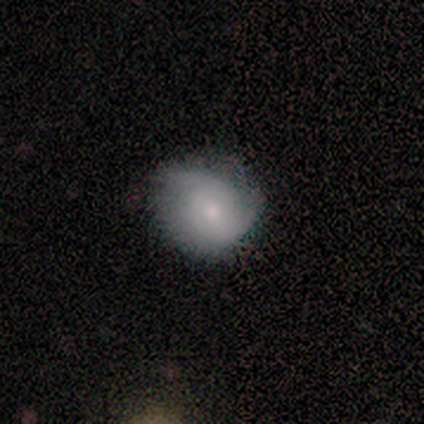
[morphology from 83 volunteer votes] Smooth or featured? 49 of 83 (59%) said smooth. How rounded? 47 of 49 (96%) said round. Merging? 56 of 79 (71%) said none.